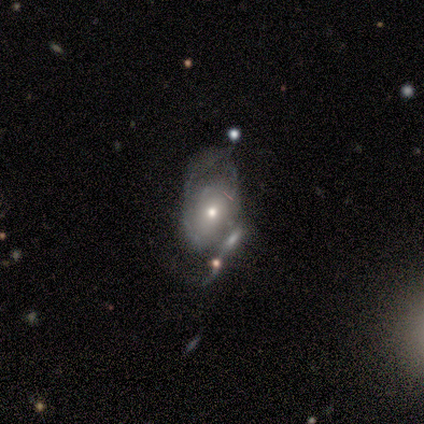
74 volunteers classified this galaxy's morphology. This appears to be a featured or disk galaxy (77%) with no bar (91%), medium (44%) spiral arms (56%) and a moderate central bulge (56%). Merging: merger (37%).